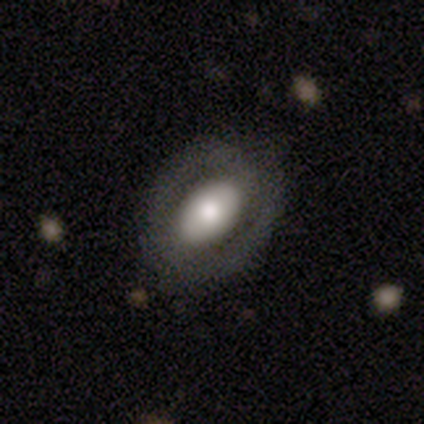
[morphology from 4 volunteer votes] Smooth or featured? 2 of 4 (50%, tied with featured or disk) said smooth. How rounded? 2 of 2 (100%) said in between. Merging? 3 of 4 (75%) said none.